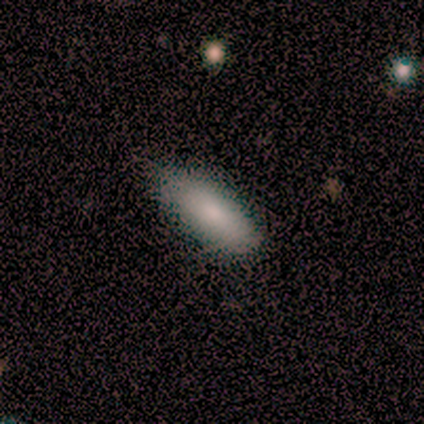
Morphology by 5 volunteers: A smooth galaxy with no disk features (100%) that is in between round and cigar-shaped (80%). Merging: none (80%).